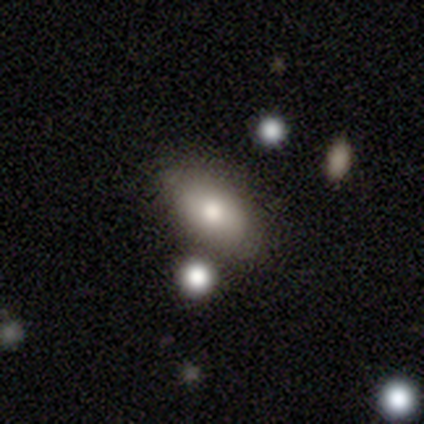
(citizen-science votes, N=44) Smooth or featured?
  - smooth: 77% *
  - featured or disk: 18%
  - star or artifact: 5%
How rounded?
  - in between: 97% *
  - round: 3%
  - cigar-shaped: 0%
Merging?
  - none: 83% *
  - minor disturbance: 7%
  - merger: 7%
  - major disturbance: 2%